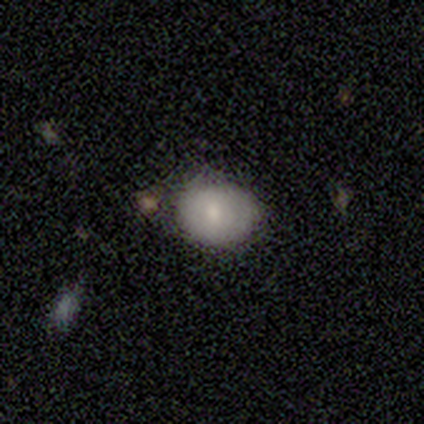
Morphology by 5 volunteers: A smooth galaxy with no disk features (80%) that is round (50%, tied with in between). Merging: none (80%).